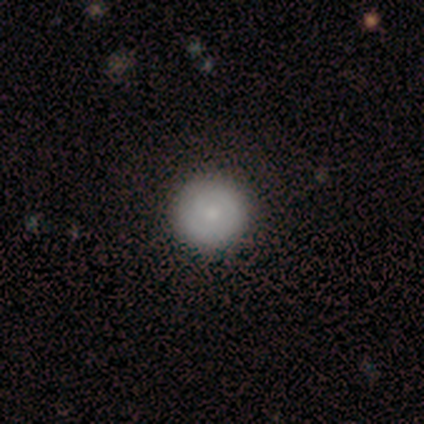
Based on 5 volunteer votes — Morphology: type=smooth (60%); roundness=round (100%); merging=none (100%).